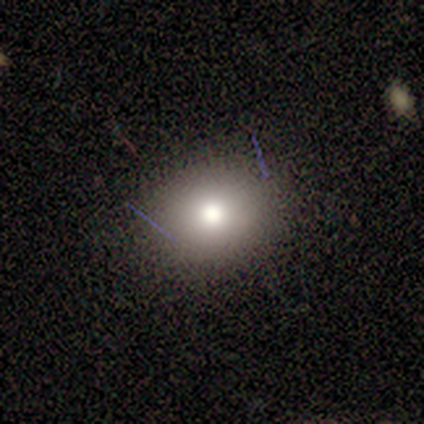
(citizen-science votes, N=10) Morphology: type=smooth (100%); roundness=in between (60%); merging=none (100%).